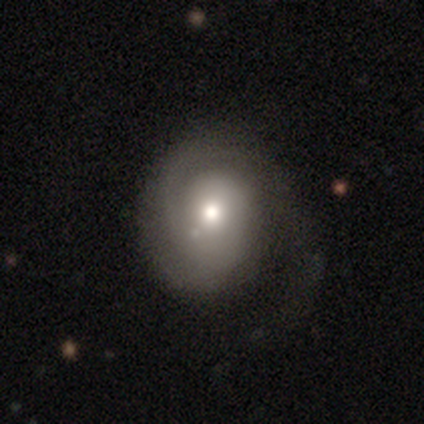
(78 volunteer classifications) Smooth or featured? 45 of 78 (58%) said featured or disk. Edge-on disk? 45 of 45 (100%) said no. Bar? 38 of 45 (84%) said no. Spiral arms? 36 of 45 (80%) said yes. Spiral winding? 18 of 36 (50%) said tight. Spiral arm count? 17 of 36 (47%) said 1. Bulge size? 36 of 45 (80%) said moderate. Merging? 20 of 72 (28%) said none.